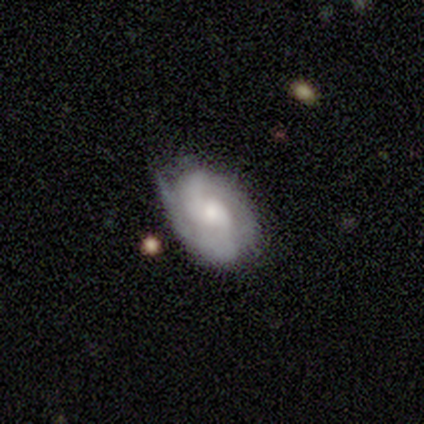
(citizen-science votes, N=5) A featured or disk galaxy (80%) with a weak bar (67%), 2 (100%) tight (100%) spiral arms (100%) and a small central bulge (67%). Merging: none (80%).